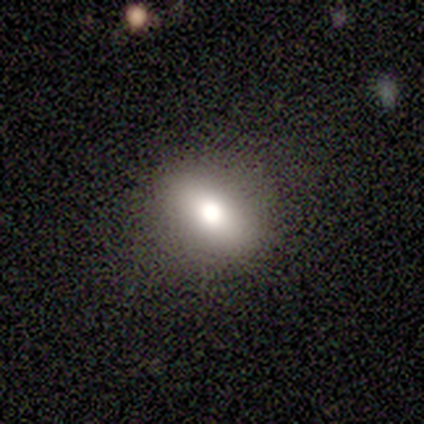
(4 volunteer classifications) smooth 75%, featured or disk 25%, star or artifact 0%. Down the decision tree: how rounded — in between (100%); merging — none (75%).